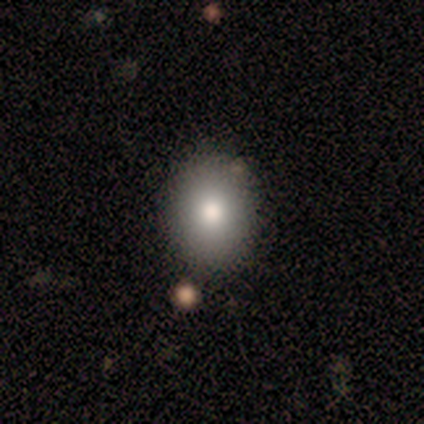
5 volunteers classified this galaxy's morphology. type=smooth (100%); roundness=in between (80%); merging=none (100%).